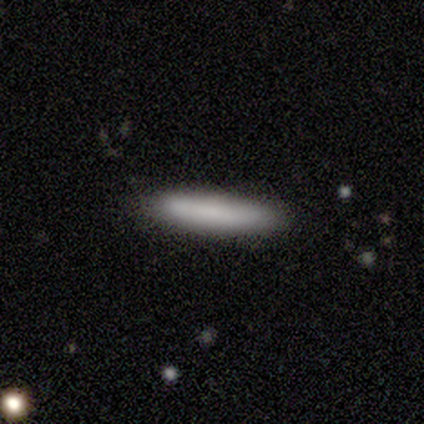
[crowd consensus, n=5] Volunteers were most divided on "smooth or featured": smooth: 80%, featured or disk: 20%, star or artifact: 0%. More confident: how rounded — cigar-shaped (100%); merging — none (80%).